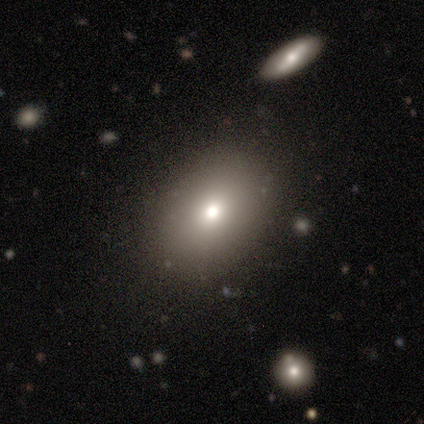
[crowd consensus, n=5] Smooth or featured? 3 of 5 (60%) said featured or disk. Edge-on disk? 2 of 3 (67%) said no. Bar? 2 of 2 (100%) said no. Spiral arms? 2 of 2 (100%) said no. Bulge size? 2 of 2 (100%) said moderate. Merging? 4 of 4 (100%) said none.